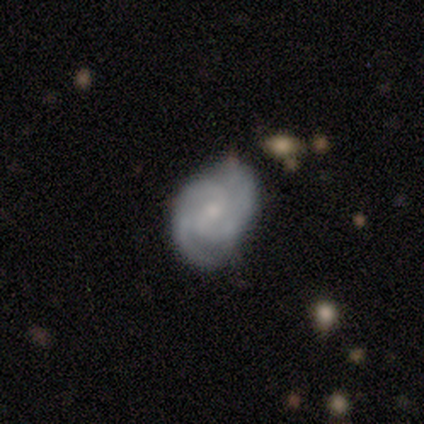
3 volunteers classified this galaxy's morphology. Q: Smooth or featured?
A: featured or disk (67%); runner-up: smooth (33%)
Q: Edge-on disk?
A: no (100%)
Q: Bar?
A: strong (50%); tied with: weak (50%)
Q: Spiral arms?
A: yes (100%)
Q: Spiral winding?
A: medium (100%)
Q: Spiral arm count?
A: 2 (50%); tied with: 3 (50%)
Q: Bulge size?
A: moderate (100%)
Q: Merging?
A: none (100%)